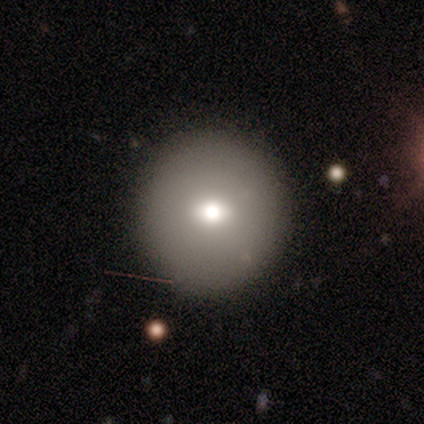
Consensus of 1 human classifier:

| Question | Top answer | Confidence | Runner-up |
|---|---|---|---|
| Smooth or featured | smooth | 100% | — |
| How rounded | round | 100% | — |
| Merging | none | 100% | — |